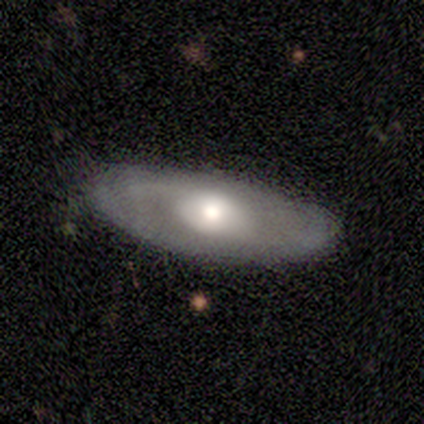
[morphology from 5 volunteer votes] A featured or disk galaxy (80%) viewed edge-on (50%, tied with no) with a rounded central bulge (100%). Merging: none (100%).